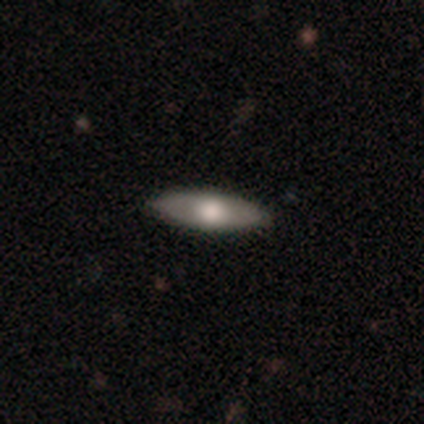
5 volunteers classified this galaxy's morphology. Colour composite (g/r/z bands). It shows a smooth galaxy with no disk features (60%) that is in between round and cigar-shaped (67%). Merging: none (100%).